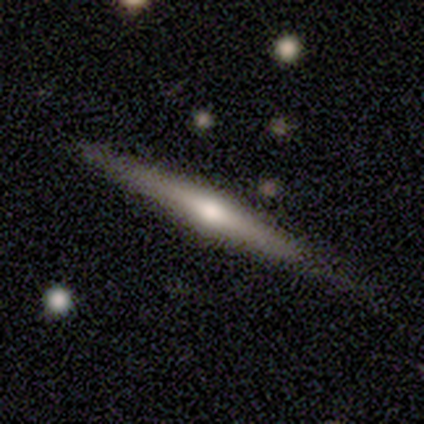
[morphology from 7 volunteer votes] smooth_or_featured: featured or disk (p=1.00)
disk_edge_on: yes (p=0.86) [alt: no p=0.14]
edge_on_bulge: rounded (p=1.00)
merging: none (p=0.86) [alt: minor disturbance p=0.14]